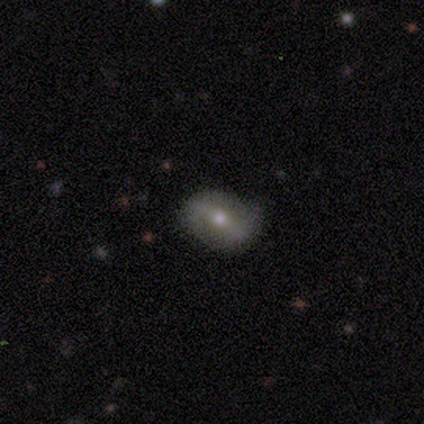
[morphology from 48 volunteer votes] Volunteers were most divided on "spiral arms": yes: 52%, no: 48%. Remaining: edge-on disk — no (94%); bulge size — moderate (74%); spiral arm count — 2 (69%); smooth or featured — featured or disk (69%); merging — none (66%); bar — strong (52%); spiral winding — loose (44%).